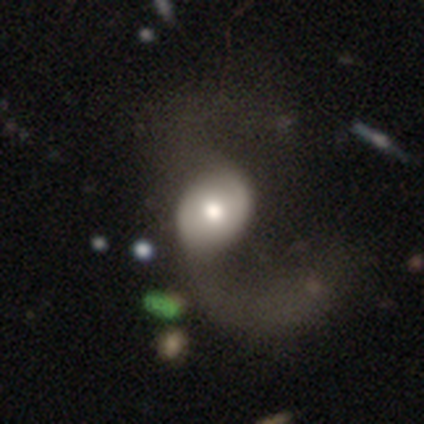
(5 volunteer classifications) This appears to be a smooth galaxy with no disk features (40%, tied with star or artifact) that is in between round and cigar-shaped (100%). Merging: major disturbance (100%).